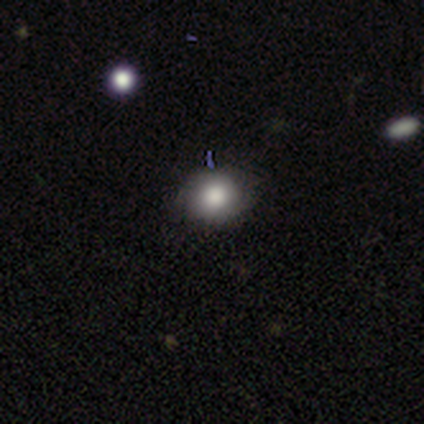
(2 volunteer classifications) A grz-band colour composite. It shows a smooth galaxy with no disk features (50%, tied with star or artifact) that is round (100%). Merging: minor disturbance (100%).